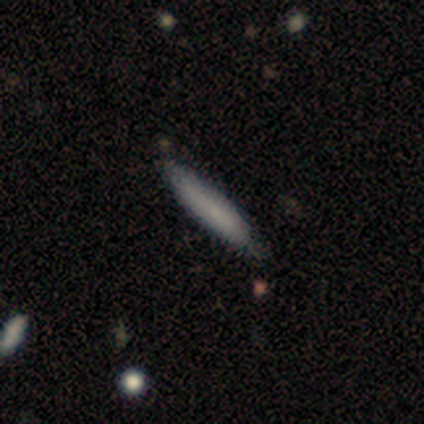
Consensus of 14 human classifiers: Smooth or featured? smooth (79%)
How rounded? cigar-shaped (100%)
Merging? none (92%)